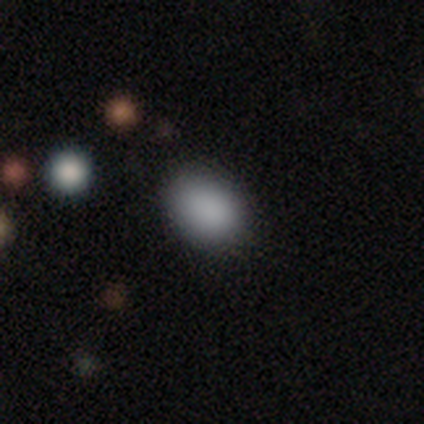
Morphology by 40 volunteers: This appears to be a smooth galaxy with no disk features (95%) that is in between round and cigar-shaped (66%). Merging: none (74%).